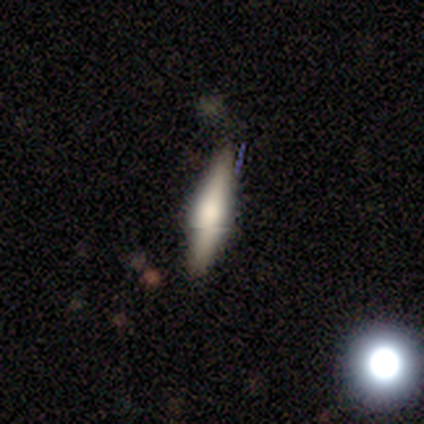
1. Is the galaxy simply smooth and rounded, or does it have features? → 57% smooth, 43% featured or disk, 0% star or artifact.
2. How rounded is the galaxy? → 100% cigar-shaped, 0% round, 0% in between.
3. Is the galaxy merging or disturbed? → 71% none, 14% minor disturbance, 14% merger, 0% major disturbance.